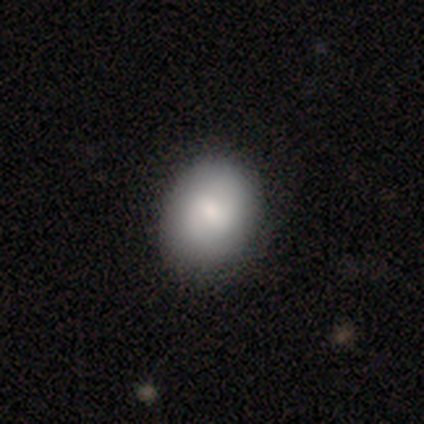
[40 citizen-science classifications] smooth_or_featured: smooth (p=0.80) [alt: featured or disk p=0.17]
how_rounded: in between (p=0.50) [alt: round p=0.47]
merging: none (p=0.56) [alt: minor disturbance p=0.13]